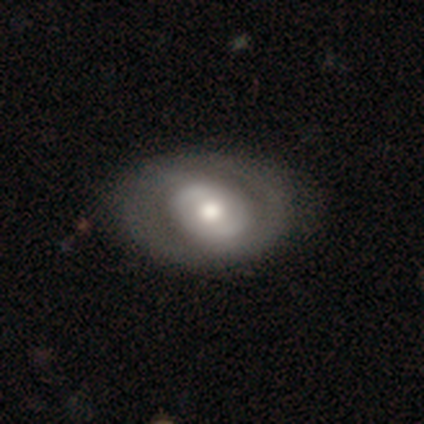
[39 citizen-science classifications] smooth-or-featured: featured or disk: 69% | smooth: 28% | star or artifact: 3%
  disk-edge-on: no: 100% | yes: 0%
    bar: no: 67% | weak: 22% | strong: 11%
    has-spiral-arms: no: 63% | yes: 37%
    bulge-size: moderate: 74% | large: 19% | small: 7% | dominant: 0% | none: 0%
  merging: none: 66% | minor disturbance: 11% | major disturbance: 3% | merger: 3%